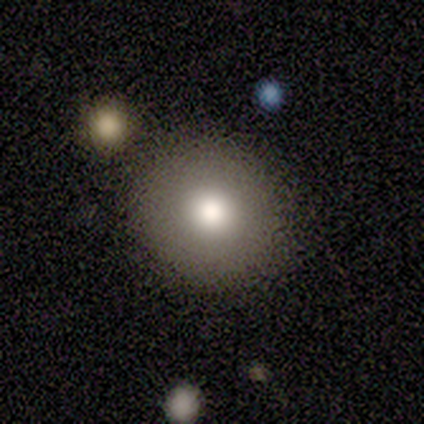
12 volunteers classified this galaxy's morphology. Smooth or featured? 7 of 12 (58%) said smooth. How rounded? 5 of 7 (71%) said round. Merging? 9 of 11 (82%) said none.